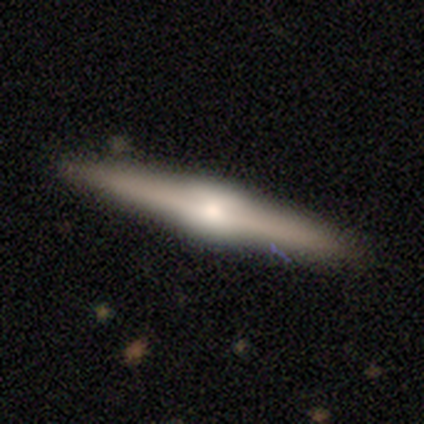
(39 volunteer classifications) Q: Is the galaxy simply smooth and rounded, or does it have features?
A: featured or disk — 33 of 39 (85%).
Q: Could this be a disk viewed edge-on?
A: yes — 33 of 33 (100%).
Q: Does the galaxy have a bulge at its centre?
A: rounded — 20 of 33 (61%).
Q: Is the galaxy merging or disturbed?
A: none — 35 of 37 (95%).